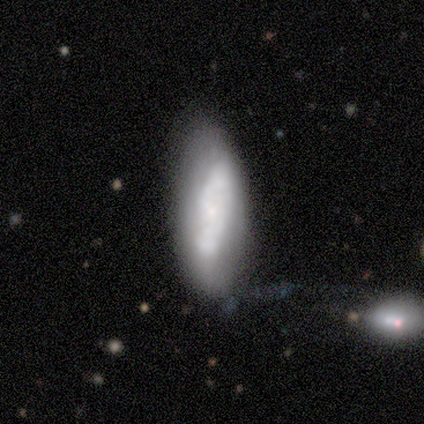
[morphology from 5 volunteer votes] This appears to be a featured or disk galaxy (60%) with no bar (100%), no spiral arms (67%) and a small central bulge (100%). Merging: none (40%, tied with minor disturbance).